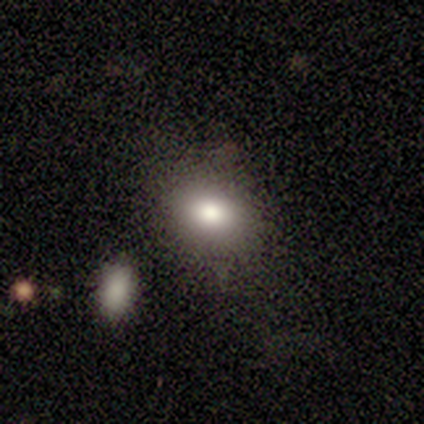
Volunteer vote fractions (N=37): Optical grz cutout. It shows a smooth galaxy with no disk features (81%) that is in between round and cigar-shaped (53%). Merging: none (79%).